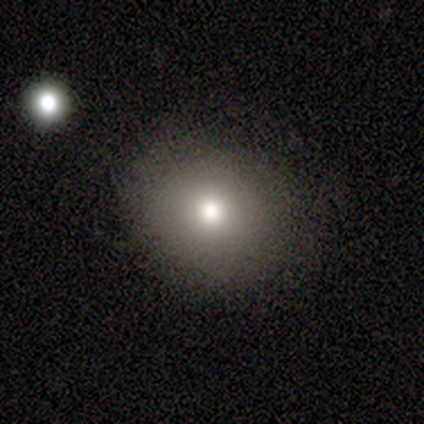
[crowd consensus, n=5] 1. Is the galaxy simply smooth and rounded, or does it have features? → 80% smooth, 20% star or artifact, 0% featured or disk.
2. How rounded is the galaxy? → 100% round, 0% in between, 0% cigar-shaped.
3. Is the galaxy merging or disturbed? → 100% none, 0% minor disturbance, 0% major disturbance, 0% merger.